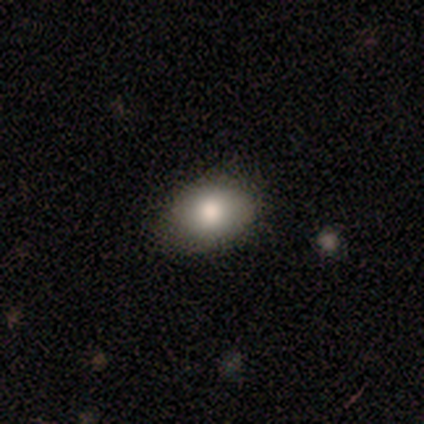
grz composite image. It shows a smooth galaxy with no disk features (100%) that is in between round and cigar-shaped (80%). Merging: none (60%).